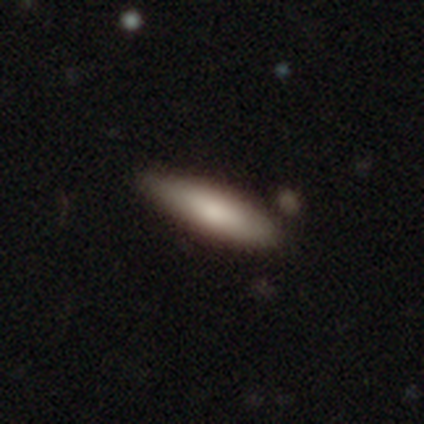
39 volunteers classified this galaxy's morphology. A smooth galaxy with no disk features (87%) that is cigar-shaped (56%). Merging: none (86%).